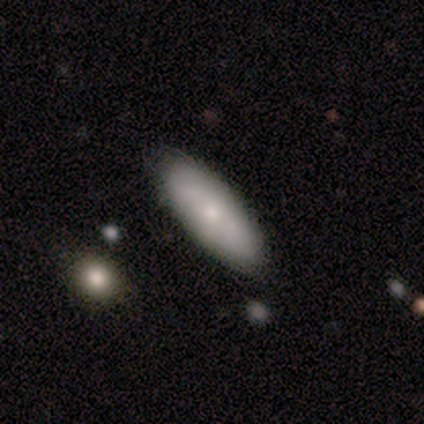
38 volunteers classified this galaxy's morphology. smooth-or-featured: smooth: 63% | featured or disk: 32% | star or artifact: 5%
  how-rounded: in between: 83% | cigar-shaped: 12% | round: 4%
  merging: none: 78% | minor disturbance: 19% | major disturbance: 3% | merger: 0%